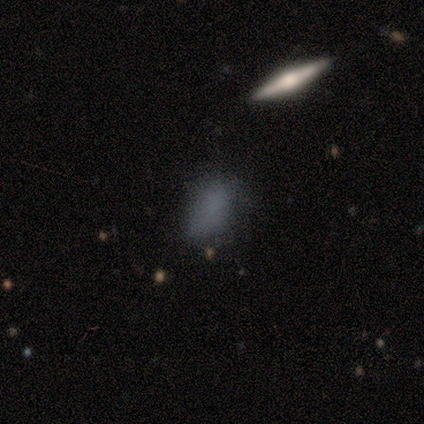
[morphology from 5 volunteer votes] type=smooth (40%, tied with star or artifact); roundness=in between (100%); merging=none (67%).